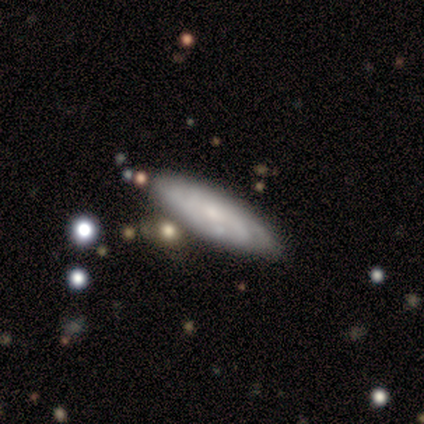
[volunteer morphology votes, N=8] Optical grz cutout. It shows a smooth galaxy with no disk features (50%, tied with featured or disk) that is in between round and cigar-shaped (50%, tied with cigar-shaped). Merging: none (62%).